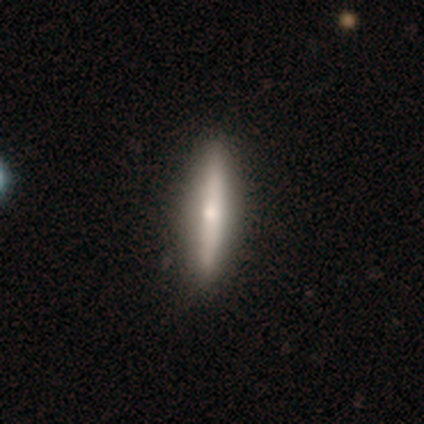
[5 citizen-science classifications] smooth 40% (tied), featured or disk 40% (tied), star or artifact 20%. Down the decision tree: how rounded — cigar-shaped (100%); merging — none (75%).